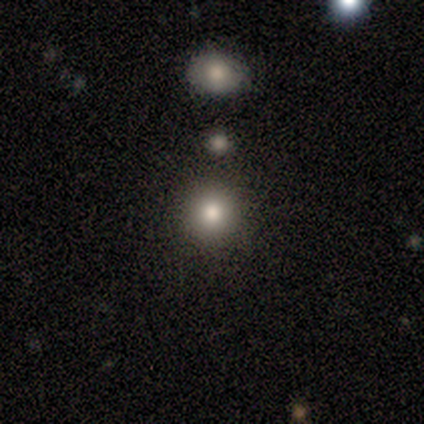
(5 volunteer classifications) smooth 100%, featured or disk 0%, star or artifact 0%. Down the decision tree: how rounded — round (100%); merging — none (80%).